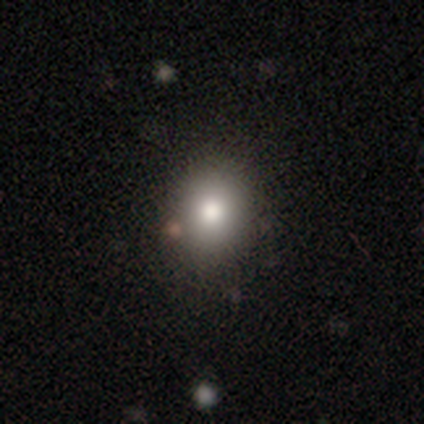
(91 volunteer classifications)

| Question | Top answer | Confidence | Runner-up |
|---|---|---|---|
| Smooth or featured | smooth | 78% | featured or disk (12%) |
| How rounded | round | 59% | in between (39%) |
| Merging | none | 87% | minor disturbance (10%) |